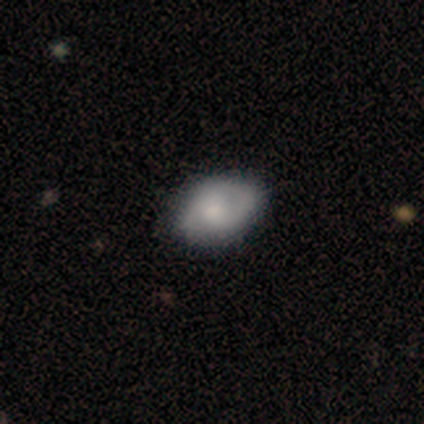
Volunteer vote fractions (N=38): Morphology: type=smooth (53%); roundness=in between (80%); merging=none (76%).